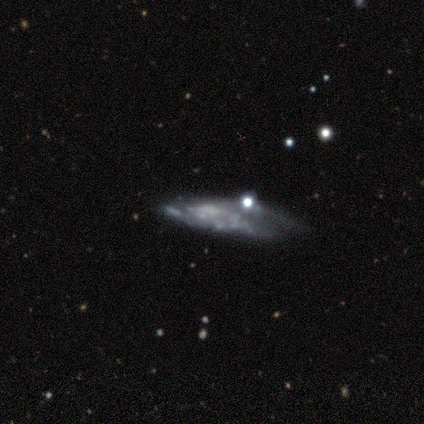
This is possibly a featured or disk galaxy (50%). It is clearly not viewed edge-on (100%). Bar: clearly no (100%). Spiral arm pattern: likely no (75%). Central bulge: clearly none (100%). Merging: marginally none (33%, tied with minor disturbance and major disturbance).